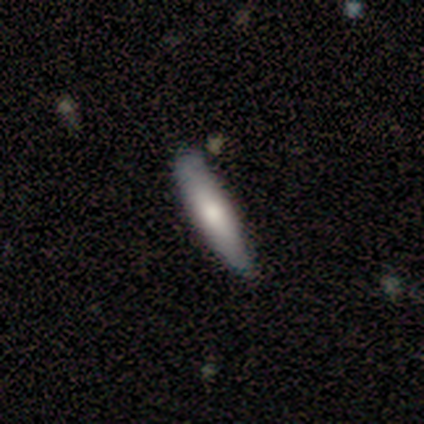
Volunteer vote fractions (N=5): smooth 80%, featured or disk 20%, star or artifact 0%. Down the decision tree: how rounded — cigar-shaped (75%); merging — none (100%).